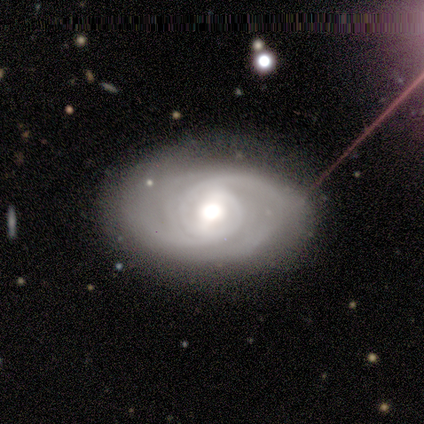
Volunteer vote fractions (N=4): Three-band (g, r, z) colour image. It shows a featured or disk galaxy (100%) with no bar (67%), 2 (50%, tied with can't tell) tight (100%) spiral arms (67%) and a moderate central bulge (100%). Merging: none (100%).